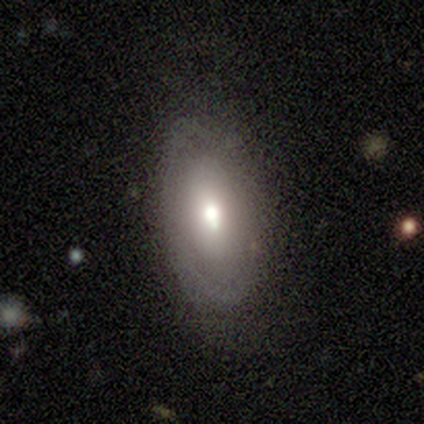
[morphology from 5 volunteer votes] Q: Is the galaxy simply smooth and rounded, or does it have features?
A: featured or disk — 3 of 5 (60%).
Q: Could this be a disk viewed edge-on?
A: no — 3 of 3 (100%).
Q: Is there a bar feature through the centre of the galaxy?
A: no — 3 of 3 (100%).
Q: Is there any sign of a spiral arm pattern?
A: no — 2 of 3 (67%).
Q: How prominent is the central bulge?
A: moderate — 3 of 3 (100%).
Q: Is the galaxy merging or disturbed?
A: none — 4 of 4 (100%).